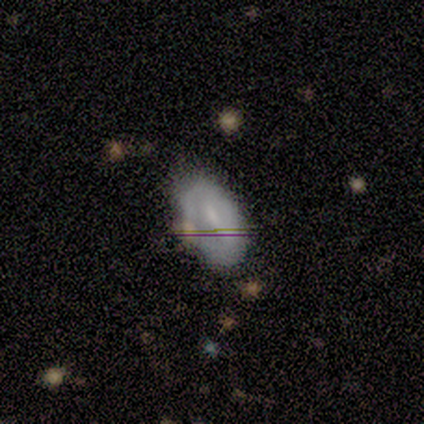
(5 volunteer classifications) Volunteers were most divided on "smooth or featured": smooth: 60%, featured or disk: 20%, star or artifact: 20%. More confident: how rounded — in between (100%); merging — none (75%).